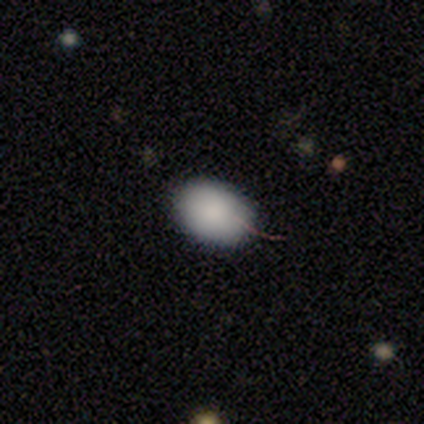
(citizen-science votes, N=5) A smooth galaxy with no disk features (100%) that is in between round and cigar-shaped (100%).

Vote fractions:
- Smooth or featured? smooth: 100% / featured or disk: 0% / star or artifact: 0%
- How rounded? in between: 100% / round: 0% / cigar-shaped: 0%
- Merging? none: 100% / minor disturbance: 0% / major disturbance: 0% / merger: 0%